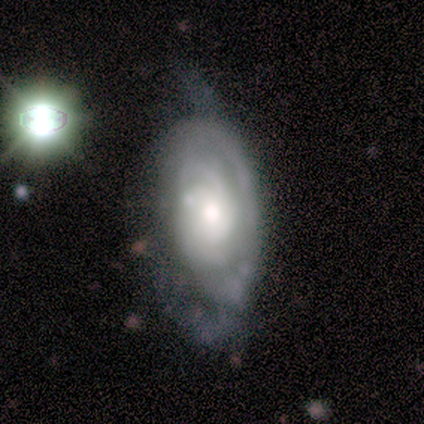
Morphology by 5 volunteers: Smooth or featured? featured or disk (80%)
Edge-on disk? no (100%)
Bar? no (75%)
Spiral arms? yes (100%)
Spiral winding? tight (50%)
Spiral arm count? can't tell (100%)
Bulge size? moderate (50%)
Merging? minor disturbance (60%)